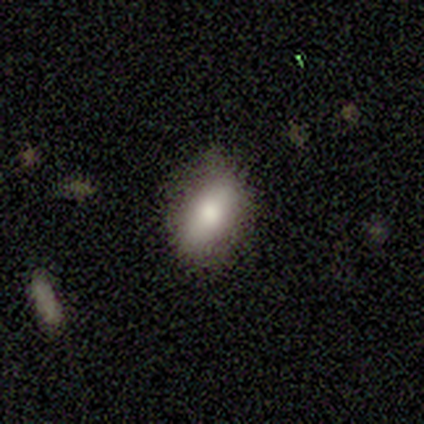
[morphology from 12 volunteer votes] A smooth galaxy with no disk features (83%) that is in between round and cigar-shaped (90%). Merging: none (92%).